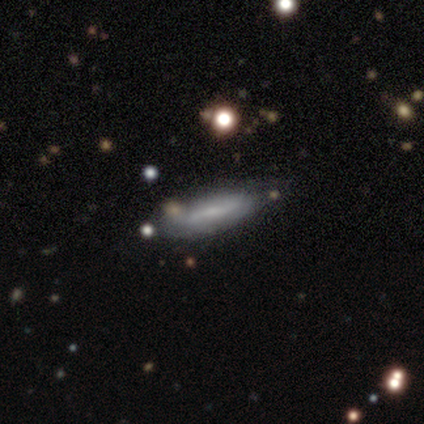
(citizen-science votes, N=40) smooth-or-featured: featured or disk: 55% | smooth: 42% | star or artifact: 2%
  disk-edge-on: no: 64% | yes: 36%
    bar: weak: 64% | no: 29% | strong: 7%
    has-spiral-arms: yes: 71% | no: 29%
      spiral-winding: loose: 50% | medium: 30% | tight: 20%
      spiral-arm-count: 2: 90% | can't tell: 10% | 1: 0% | 3: 0% | 4: 0% | more than 4: 0%
    bulge-size: small: 43% (tied) | none: 43% (tied) | moderate: 14% | dominant: 0% | large: 0%
  merging: none: 79% | minor disturbance: 8% | merger: 8% | major disturbance: 5%